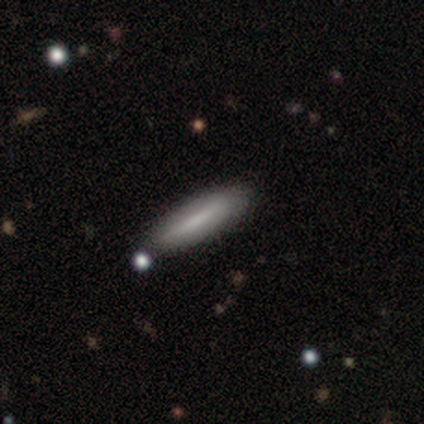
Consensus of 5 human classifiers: A smooth galaxy with no disk features (80%) that is cigar-shaped (75%).

Vote fractions:
- Smooth or featured? smooth: 80% / featured or disk: 20% / star or artifact: 0%
- How rounded? cigar-shaped: 75% / in between: 25% / round: 0%
- Merging? none: 80% / major disturbance: 20% / minor disturbance: 0% / merger: 0%